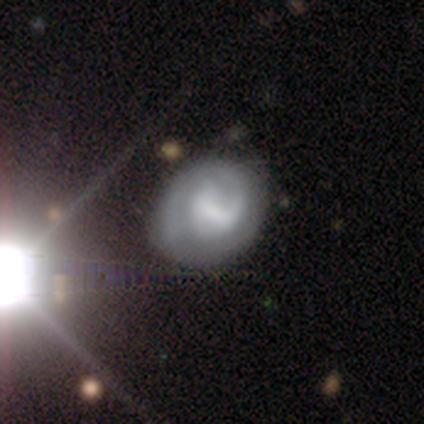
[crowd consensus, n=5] smooth-or-featured: featured or disk: 80% | smooth: 20% | star or artifact: 0%
  disk-edge-on: no: 100% | yes: 0%
    bar: weak: 100% | strong: 0% | no: 0%
    has-spiral-arms: yes: 100% | no: 0%
      spiral-winding: tight: 75% | medium: 25% | loose: 0%
      spiral-arm-count: 2: 75% | 1: 25% | 3: 0% | 4: 0% | more than 4: 0% | can't tell: 0%
    bulge-size: none: 50% | large: 25% | moderate: 25% | dominant: 0% | small: 0%
  merging: none: 40% (tied) | minor disturbance: 40% (tied) | major disturbance: 20% | merger: 0%